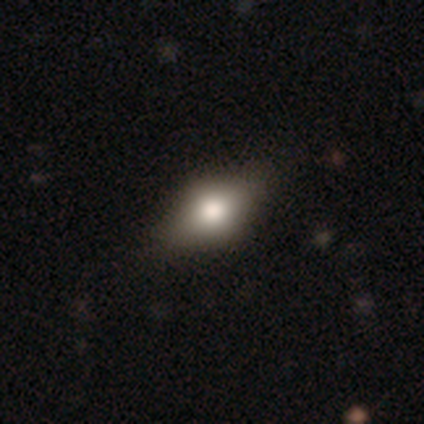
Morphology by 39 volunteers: Q: Smooth or featured?
A: smooth (64%); runner-up: featured or disk (33%)
Q: How rounded?
A: in between (92%); runner-up: round (8%)
Q: Merging?
A: none (82%); runner-up: minor disturbance (11%)